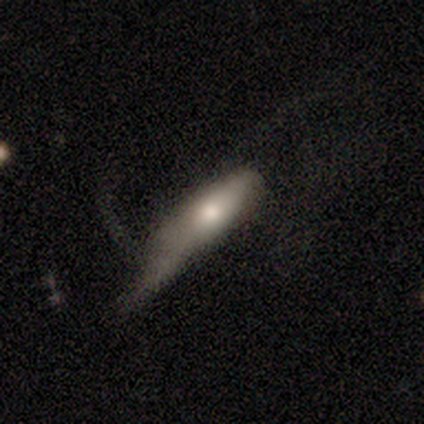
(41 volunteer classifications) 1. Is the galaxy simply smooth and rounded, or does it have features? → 54% smooth, 37% featured or disk, 10% star or artifact.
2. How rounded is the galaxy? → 68% cigar-shaped, 32% in between, 0% round.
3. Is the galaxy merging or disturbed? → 51% major disturbance, 30% minor disturbance, 14% none, 5% merger.